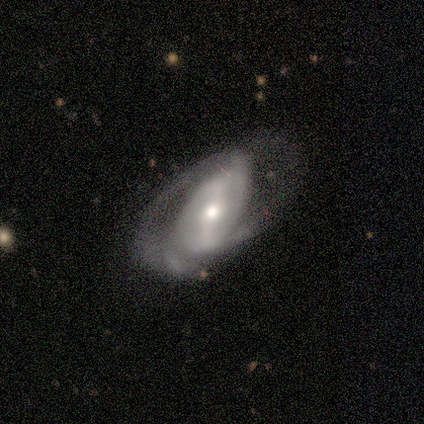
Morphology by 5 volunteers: This appears to be a featured or disk galaxy (100%) with a strong bar (40%, tied with weak), 2 (67%) tight (33%, tied with medium and loose) spiral arms (60%) and a moderate central bulge (40%, tied with small). Merging: minor disturbance (60%).